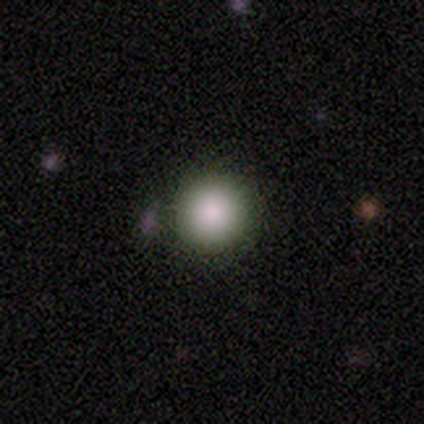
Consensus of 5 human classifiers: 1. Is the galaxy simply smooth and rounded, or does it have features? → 60% smooth, 40% star or artifact, 0% featured or disk.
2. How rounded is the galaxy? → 100% round, 0% in between, 0% cigar-shaped.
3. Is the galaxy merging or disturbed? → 33% none (tied), 33% minor disturbance (tied), 33% major disturbance (tied), 0% merger.